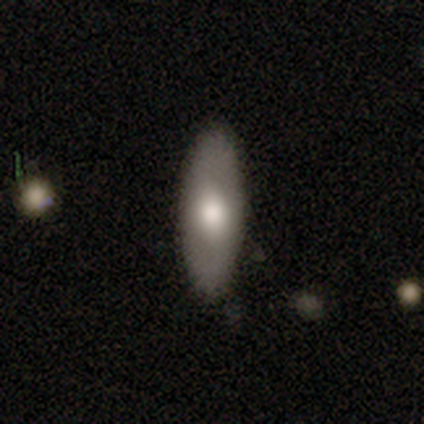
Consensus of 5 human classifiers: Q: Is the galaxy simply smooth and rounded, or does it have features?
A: smooth — 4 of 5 (80%).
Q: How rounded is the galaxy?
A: in between — 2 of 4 (50%).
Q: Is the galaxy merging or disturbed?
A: none — 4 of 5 (80%).